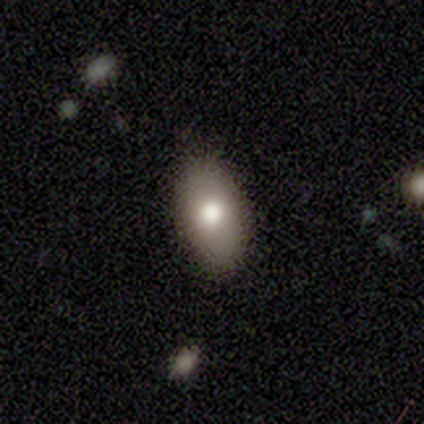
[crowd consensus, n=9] This appears to be a smooth galaxy with no disk features (67%) that is in between round and cigar-shaped (100%). Merging: none (78%).